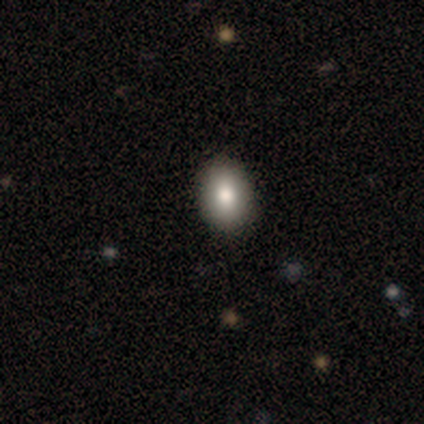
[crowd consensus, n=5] Morphology: type=smooth (80%); roundness=in between (75%); merging=none (100%).